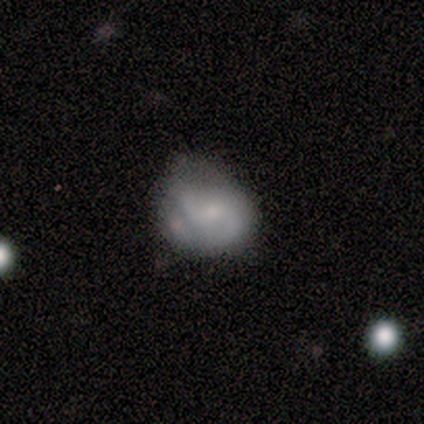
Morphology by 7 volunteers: featured or disk 57%, smooth 43%, star or artifact 0%. Down the decision tree: edge-on disk — no (100%); bar — weak (75%); spiral arms — yes (50%, tied with no); spiral arm count — 2 (100%); spiral winding — medium (50%, tied with loose); bulge size — small (100%); merging — none (57%).